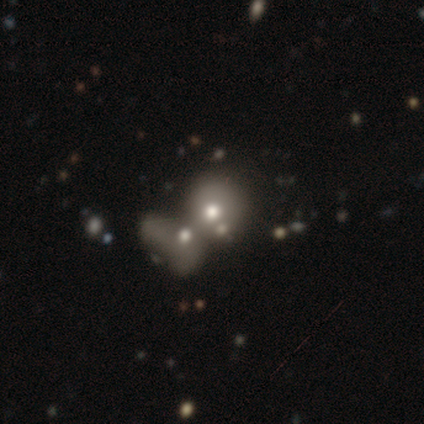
A featured or disk galaxy (75%) with no bar (100%), no spiral arms (100%) and a moderate central bulge (100%). Merging: merger (100%).